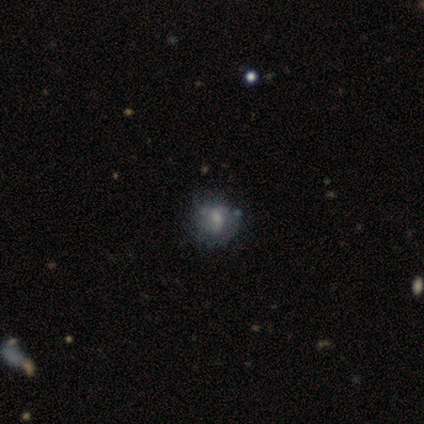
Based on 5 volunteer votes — This appears to be a featured or disk galaxy (60%) with no bar (67%), 2 (50%, tied with can't tell) tight (50%, tied with loose) spiral arms (67%) and a moderate central bulge (67%). Merging: none (50%).